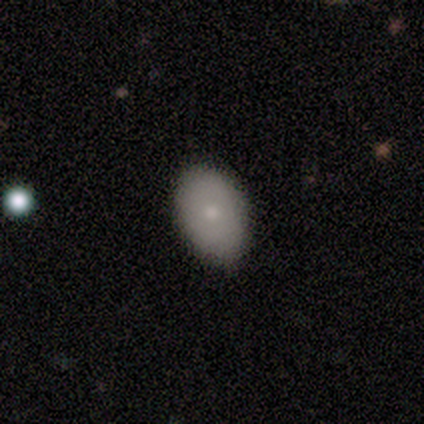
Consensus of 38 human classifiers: Smooth or featured? smooth (63%)
How rounded? in between (96%)
Merging? none (82%)